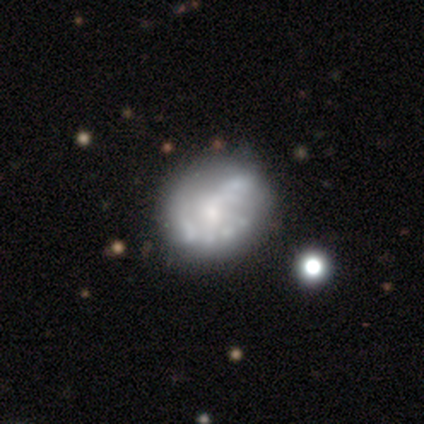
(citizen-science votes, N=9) Smooth or featured? 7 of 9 (78%) said featured or disk. Edge-on disk? 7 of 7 (100%) said no. Bar? 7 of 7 (100%) said no. Spiral arms? 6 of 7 (86%) said no. Bulge size? 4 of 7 (57%) said small. Merging? 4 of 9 (44%) said none.